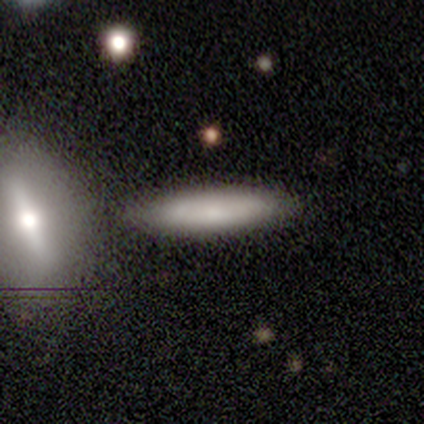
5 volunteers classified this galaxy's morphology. A smooth galaxy with no disk features (80%) that is cigar-shaped (100%).

Vote fractions:
- Smooth or featured? smooth: 80% / star or artifact: 20% / featured or disk: 0%
- How rounded? cigar-shaped: 100% / round: 0% / in between: 0%
- Merging? none: 75% / major disturbance: 25% / minor disturbance: 0% / merger: 0%